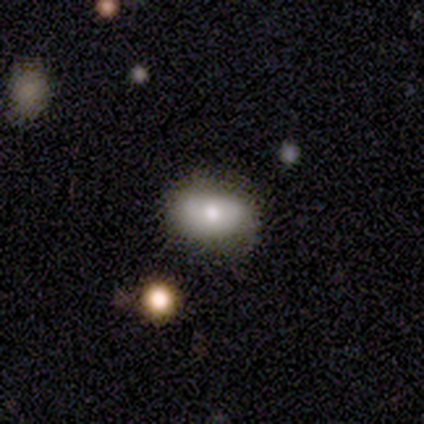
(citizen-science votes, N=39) A smooth galaxy with no disk features (62%) that is in between round and cigar-shaped (88%).

Vote fractions:
- Smooth or featured? smooth: 62% / featured or disk: 33% / star or artifact: 5%
- How rounded? in between: 88% / round: 8% / cigar-shaped: 4%
- Merging? none: 78% / minor disturbance: 16% / major disturbance: 5% / merger: 0%